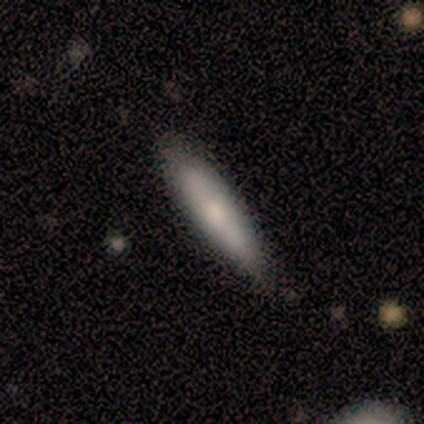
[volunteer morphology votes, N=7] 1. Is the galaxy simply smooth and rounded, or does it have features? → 71% smooth, 14% featured or disk, 14% star or artifact.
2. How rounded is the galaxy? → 100% cigar-shaped, 0% round, 0% in between.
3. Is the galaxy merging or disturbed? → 83% none, 17% minor disturbance, 0% major disturbance, 0% merger.